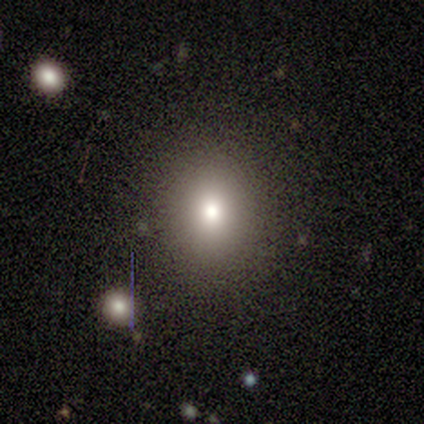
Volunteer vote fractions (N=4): smooth-or-featured: smooth: 100% | featured or disk: 0% | star or artifact: 0%
  how-rounded: round: 50% (tied) | in between: 50% (tied) | cigar-shaped: 0%
  merging: none: 100% | minor disturbance: 0% | major disturbance: 0% | merger: 0%